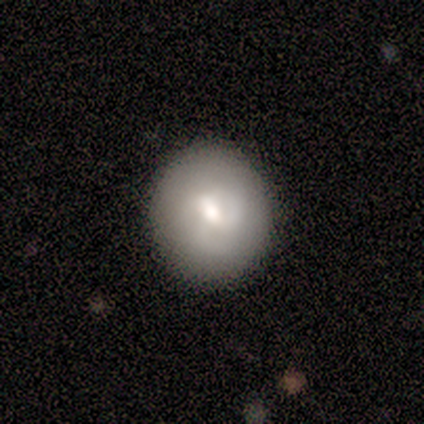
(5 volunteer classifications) Volunteers were most divided on "smooth or featured": smooth: 60%, featured or disk: 40%, star or artifact: 0%. More confident: how rounded — round (100%); merging — none (100%).